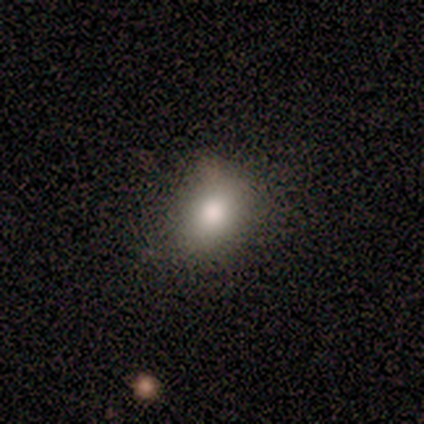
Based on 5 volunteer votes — smooth_or_featured: smooth (p=0.80) [alt: featured or disk p=0.20]
how_rounded: in between (p=0.75) [alt: round p=0.25]
merging: none (p=1.00)